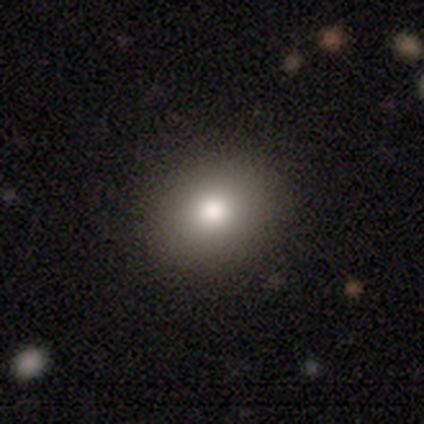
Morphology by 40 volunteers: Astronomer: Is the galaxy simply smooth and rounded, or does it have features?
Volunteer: smooth — 72%.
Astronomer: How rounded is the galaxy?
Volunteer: round — 52% (runner-up: in between, 48%).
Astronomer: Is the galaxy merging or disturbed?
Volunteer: none — 71%.